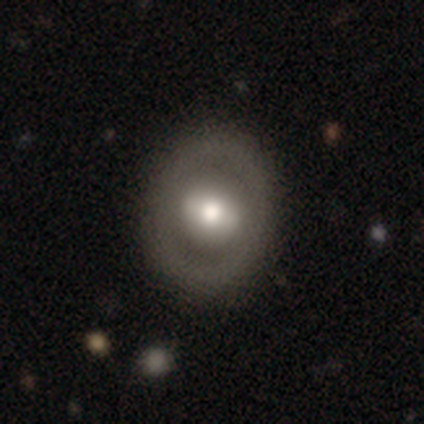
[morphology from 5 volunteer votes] A featured or disk galaxy (60%) with a strong bar (67%), no spiral arms (67%) and a moderate central bulge (67%).

Vote fractions:
- Smooth or featured? featured or disk: 60% / smooth: 40% / star or artifact: 0%
- Edge-on disk? no: 100% / yes: 0%
- Bar? strong: 67% / weak: 33% / no: 0%
- Spiral arms? no: 67% / yes: 33%
- Bulge size? moderate: 67% / large: 33% / dominant: 0% / small: 0% / none: 0%
- Merging? none: 100% / minor disturbance: 0% / major disturbance: 0% / merger: 0%